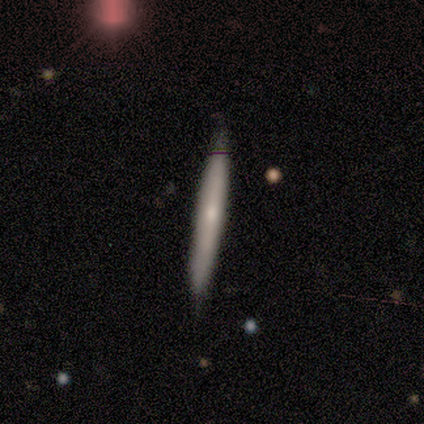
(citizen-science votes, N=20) smooth_or_featured: smooth (p=0.50) [alt: featured or disk p=0.45]
how_rounded: cigar-shaped (p=1.00)
merging: none (p=0.79) [alt: minor disturbance p=0.16]